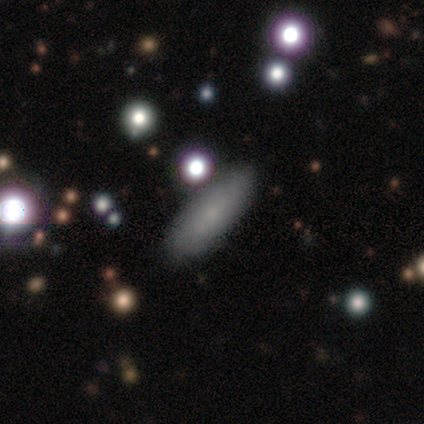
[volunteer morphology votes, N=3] Q: Smooth or featured?
A: smooth (33%); tied with: featured or disk (33%); star or artifact (33%)
Q: How rounded?
A: cigar-shaped (100%)
Q: Merging?
A: none (100%)